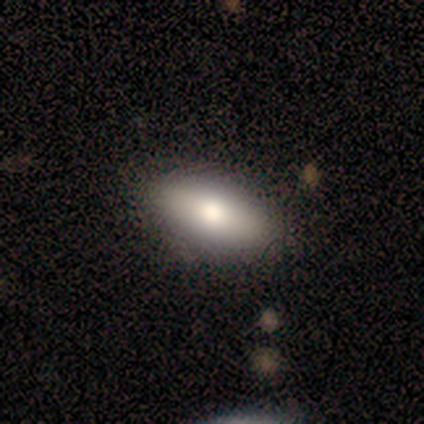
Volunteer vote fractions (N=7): Smooth or featured? smooth (43%, tied with featured or disk)
How rounded? in between (100%)
Merging? none (50%)